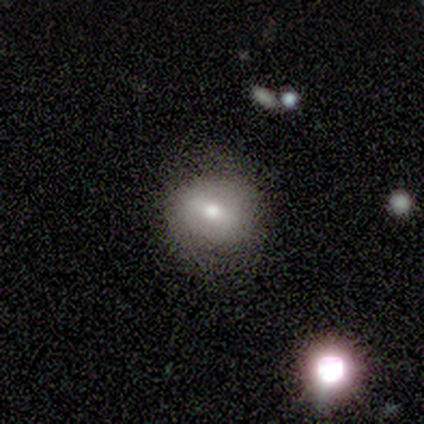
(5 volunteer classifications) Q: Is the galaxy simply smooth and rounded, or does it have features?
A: smooth — 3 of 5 (60%).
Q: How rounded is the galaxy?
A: in between — 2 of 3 (67%).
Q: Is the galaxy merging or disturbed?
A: none — 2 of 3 (67%).